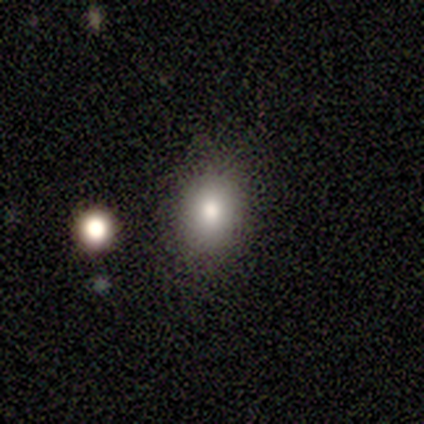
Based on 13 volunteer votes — Smooth or featured?
  - smooth: 69% *
  - star or artifact: 23%
  - featured or disk: 8%
How rounded?
  - in between: 67% *
  - round: 33%
  - cigar-shaped: 0%
Merging?
  - none: 90% *
  - major disturbance: 10%
  - minor disturbance: 0%
  - merger: 0%